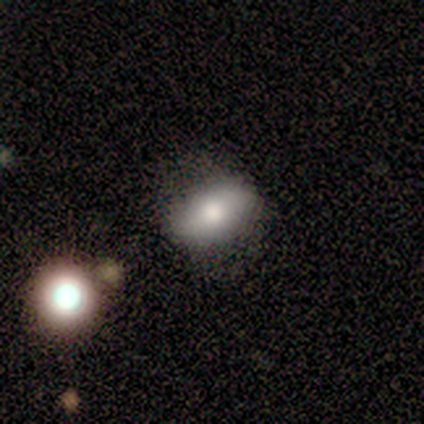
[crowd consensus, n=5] Smooth or featured? smooth (100%)
How rounded? in between (100%)
Merging? none (60%)